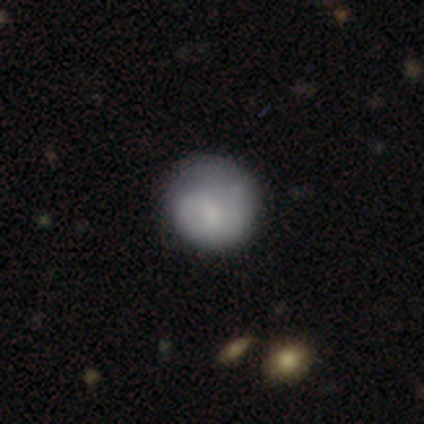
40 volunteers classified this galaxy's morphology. A smooth galaxy with no disk features (62%) that is round (96%). Merging: none (54%).